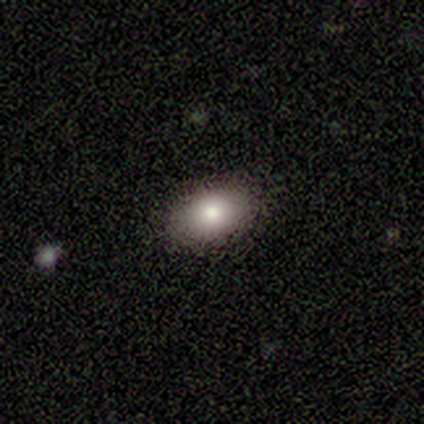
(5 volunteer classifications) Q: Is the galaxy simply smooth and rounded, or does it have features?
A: smooth — 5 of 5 (100%).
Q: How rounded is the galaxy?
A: in between — 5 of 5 (100%).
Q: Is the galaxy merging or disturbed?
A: none — 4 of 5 (80%).